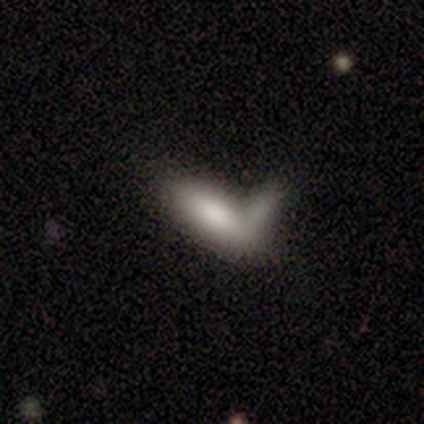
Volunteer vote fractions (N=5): Smooth or featured? smooth (100%)
How rounded? in between (80%)
Merging? merger (60%)